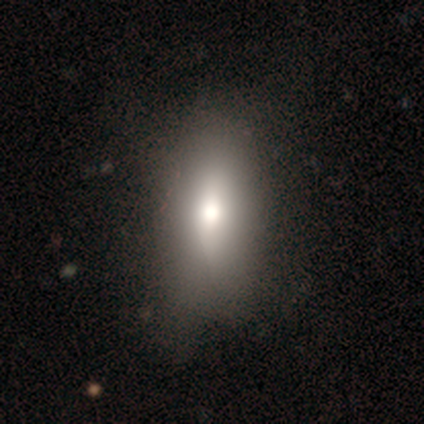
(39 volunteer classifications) Smooth or featured: smooth — 79% (featured or disk — 18%)
How rounded: in between — 77% (cigar-shaped — 19%)
Merging: none — 63% (minor disturbance — 37%)